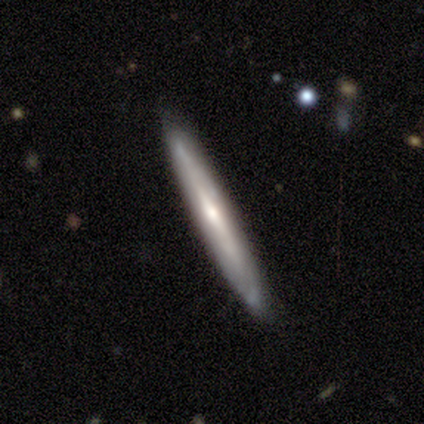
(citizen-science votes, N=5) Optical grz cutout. It shows a featured or disk galaxy (100%) viewed edge-on (60%) with a rounded central bulge (67%). Merging: none (80%).